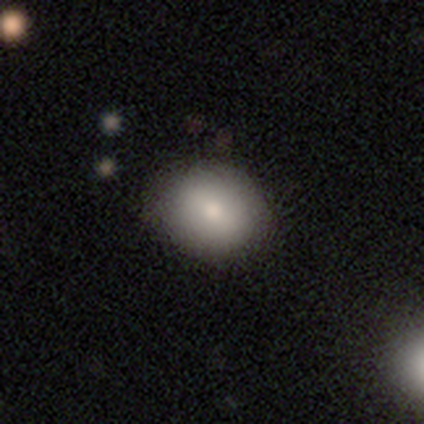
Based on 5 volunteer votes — Volunteers were most divided on "how rounded": in between: 75%, round: 25%, cigar-shaped: 0%. More confident: merging — none (100%); smooth or featured — smooth (80%).